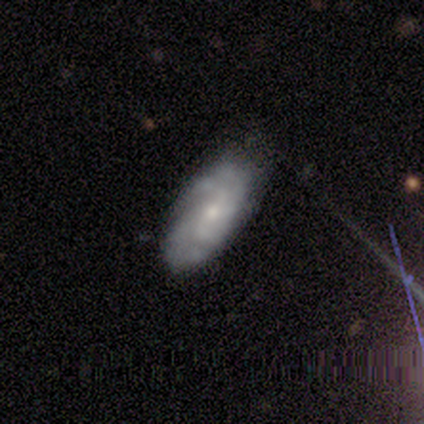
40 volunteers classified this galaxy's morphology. Overall: featured or disk (82%). Edge-on disk: no (94%). Bar: no (71%). Spiral arms: yes (87%). Spiral arm count: 4 (41%; can't tell 26%). Spiral winding: tight (67%). Bulge size: small (68%). Merging: none (72%).